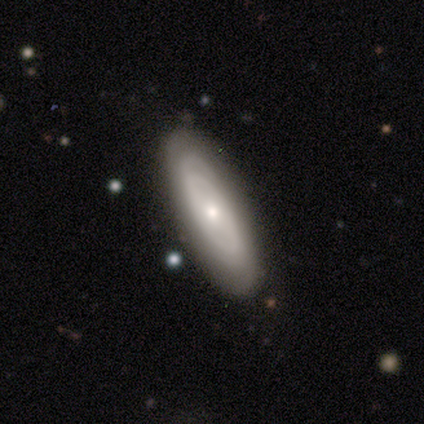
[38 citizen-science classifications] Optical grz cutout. It shows a featured or disk galaxy (58%) with no bar (89%), tight (73%) spiral arms (58%) and a small central bulge (53%). Merging: none (84%).